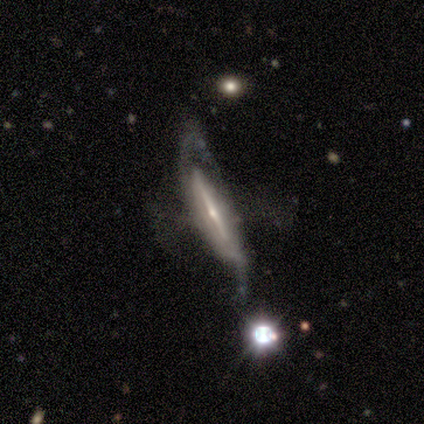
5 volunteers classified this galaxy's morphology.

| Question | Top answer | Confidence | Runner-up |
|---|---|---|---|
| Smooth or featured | featured or disk | 100% | — |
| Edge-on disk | yes | 80% | no (20%) |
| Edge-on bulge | none | 50% | tied: rounded (50%) |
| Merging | none | 40% | tied: major disturbance (40%) |